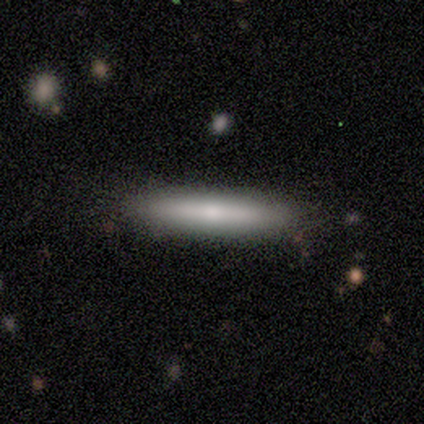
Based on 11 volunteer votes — Morphology: type=smooth (91%); roundness=cigar-shaped (90%); merging=none (82%).